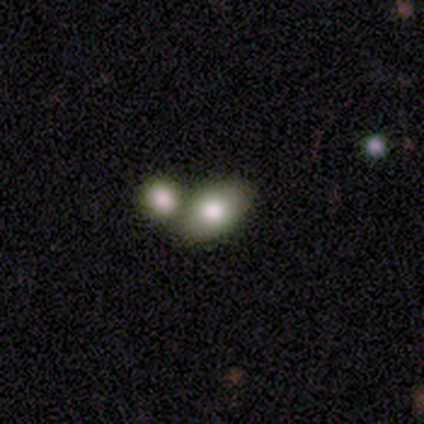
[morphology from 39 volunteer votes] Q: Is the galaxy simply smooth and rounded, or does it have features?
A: smooth — 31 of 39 (79%).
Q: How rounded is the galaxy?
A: in between — 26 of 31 (84%).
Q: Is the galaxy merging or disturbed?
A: merger — 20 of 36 (56%).